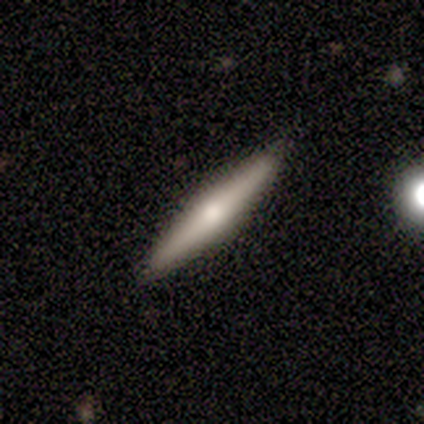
Overall: smooth (60%; featured or disk 40%). How rounded: cigar-shaped (100%). Merging: none (100%).